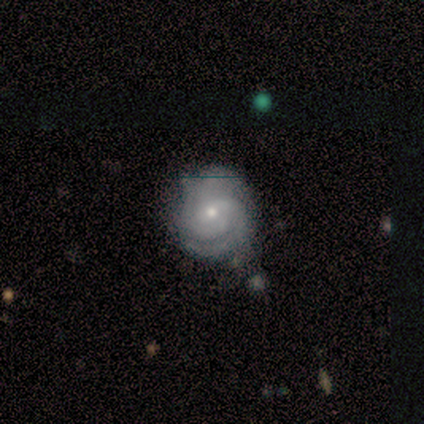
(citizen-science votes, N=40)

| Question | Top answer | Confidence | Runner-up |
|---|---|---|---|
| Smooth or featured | featured or disk | 82% | star or artifact (10%) |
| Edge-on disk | no | 97% | yes (3%) |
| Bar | no | 66% | weak (31%) |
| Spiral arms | yes | 97% | no (3%) |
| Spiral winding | tight | 74% | medium (19%) |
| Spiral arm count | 2 | 42% | 3 (35%) |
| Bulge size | small | 78% | moderate (12%) |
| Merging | none | 78% | minor disturbance (19%) |